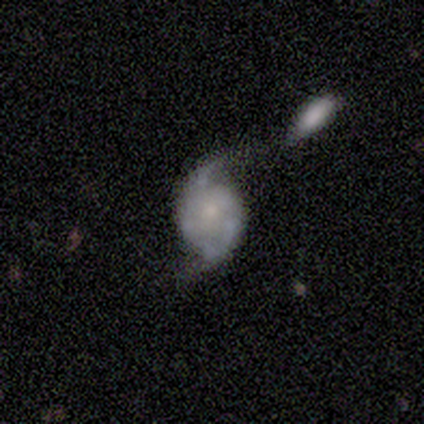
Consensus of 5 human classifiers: Smooth or featured: featured or disk — 80% (smooth — 20%)
Edge-on disk: no — 100%
Bar: no — 100%
Spiral arms: yes — 100%
Spiral winding: loose — 75% (medium — 25%)
Spiral arm count: 2 — 100%
Bulge size: small — 50% (moderate — 25%)
Merging: none — 40% (tied with merger — 40%)